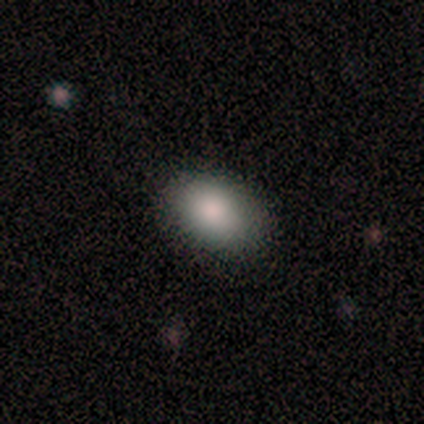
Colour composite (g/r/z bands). It shows a smooth galaxy with no disk features (100%) that is in between round and cigar-shaped (100%). Merging: none (100%).